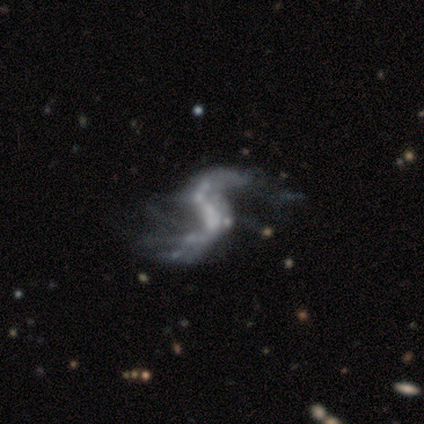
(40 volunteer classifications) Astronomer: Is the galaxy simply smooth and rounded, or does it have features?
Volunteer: featured or disk — 92%.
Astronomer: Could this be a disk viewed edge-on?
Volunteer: no — 95%.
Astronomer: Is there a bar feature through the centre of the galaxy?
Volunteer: no — 51%.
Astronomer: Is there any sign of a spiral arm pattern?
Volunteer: yes — 66%.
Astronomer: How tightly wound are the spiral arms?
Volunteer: loose — 100%.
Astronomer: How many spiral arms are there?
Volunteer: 2 — 91%.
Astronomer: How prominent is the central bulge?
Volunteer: none — 66%.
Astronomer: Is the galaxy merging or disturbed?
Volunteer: major disturbance — 26% (runner-up: merger, 18%).